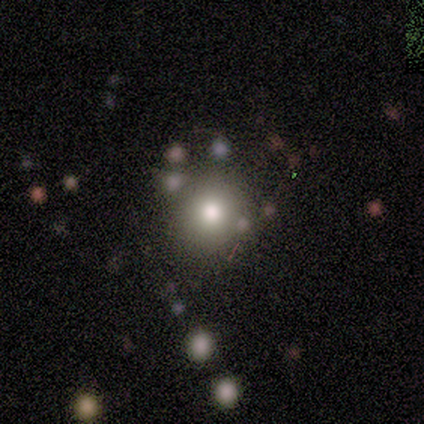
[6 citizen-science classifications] Smooth or featured?
  - smooth: 83% *
  - featured or disk: 17%
  - star or artifact: 0%
How rounded?
  - round: 100% *
  - in between: 0%
  - cigar-shaped: 0%
Merging?
  - none: 100% *
  - minor disturbance: 0%
  - major disturbance: 0%
  - merger: 0%